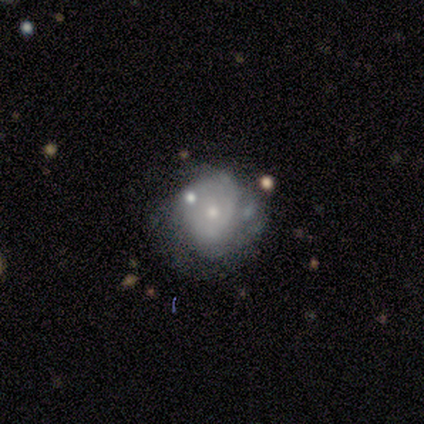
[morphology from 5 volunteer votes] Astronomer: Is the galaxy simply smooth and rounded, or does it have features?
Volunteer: featured or disk — 100%.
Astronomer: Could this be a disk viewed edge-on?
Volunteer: no — 100%.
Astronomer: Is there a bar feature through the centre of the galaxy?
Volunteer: no — 80%.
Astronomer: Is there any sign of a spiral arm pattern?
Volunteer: yes — 60% (runner-up: no, 40%).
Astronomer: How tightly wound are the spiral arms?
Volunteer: loose — 67%.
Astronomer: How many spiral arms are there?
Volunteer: can't tell — 100%.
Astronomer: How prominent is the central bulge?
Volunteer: small — 80%.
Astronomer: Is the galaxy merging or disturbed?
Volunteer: none — 40%, tied with minor disturbance at 40%.